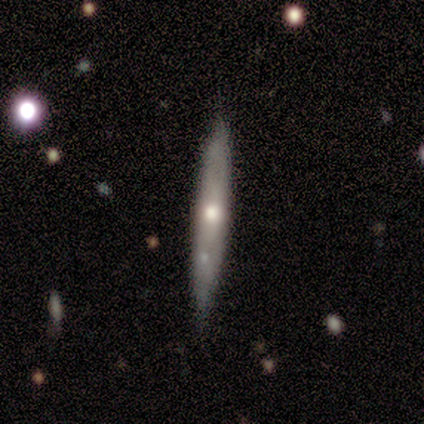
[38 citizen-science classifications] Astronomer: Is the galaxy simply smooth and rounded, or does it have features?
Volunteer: featured or disk — 55% (runner-up: smooth, 42%).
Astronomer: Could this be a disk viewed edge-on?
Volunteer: yes — 81%.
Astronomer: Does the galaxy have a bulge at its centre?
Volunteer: rounded — 71%.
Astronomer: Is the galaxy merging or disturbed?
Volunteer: none — 78%.